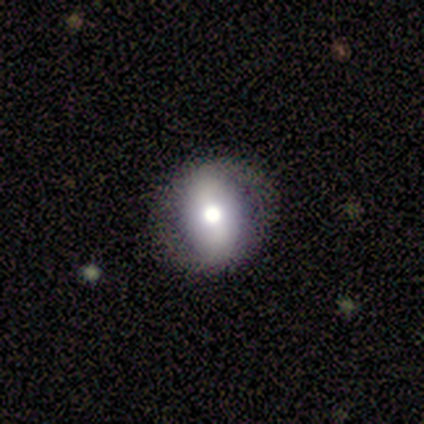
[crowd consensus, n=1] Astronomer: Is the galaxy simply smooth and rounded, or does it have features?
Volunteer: featured or disk — 100%.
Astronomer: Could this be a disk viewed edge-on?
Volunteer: no — 100%.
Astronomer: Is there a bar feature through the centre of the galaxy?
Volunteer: weak — 100%.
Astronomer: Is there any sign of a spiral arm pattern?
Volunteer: no — 100%.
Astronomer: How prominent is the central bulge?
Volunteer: moderate — 100%.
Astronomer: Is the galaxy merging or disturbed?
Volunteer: none — 100%.